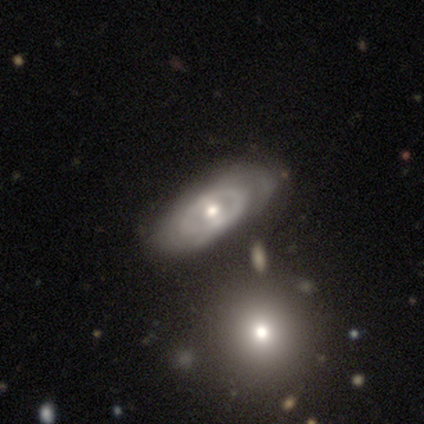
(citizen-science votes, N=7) Q: Smooth or featured?
A: smooth (57%); runner-up: featured or disk (43%)
Q: How rounded?
A: in between (100%)
Q: Merging?
A: none (86%); runner-up: minor disturbance (14%)